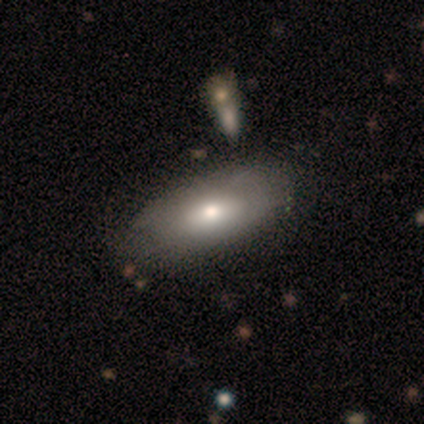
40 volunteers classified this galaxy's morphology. Overall: smooth (55%; featured or disk 40%). How rounded: in between (95%). Merging: none (45%; minor disturbance 18%).